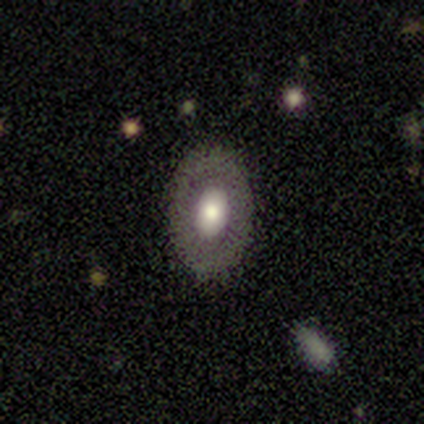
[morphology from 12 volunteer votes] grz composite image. It shows a smooth galaxy with no disk features (67%) that is in between round and cigar-shaped (88%). Merging: none (82%).